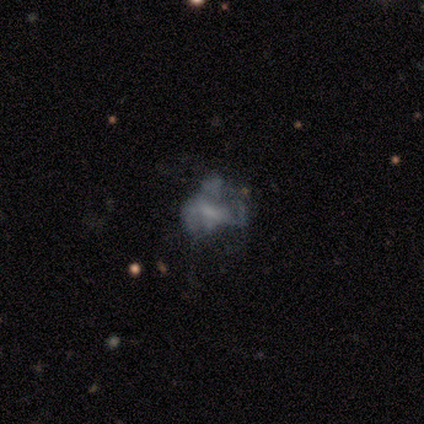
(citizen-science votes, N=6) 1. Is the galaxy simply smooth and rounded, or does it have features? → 50% featured or disk, 33% smooth, 17% star or artifact.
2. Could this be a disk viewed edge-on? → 100% no, 0% yes.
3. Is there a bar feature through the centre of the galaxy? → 100% no, 0% strong, 0% weak.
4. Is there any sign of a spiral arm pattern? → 100% no, 0% yes.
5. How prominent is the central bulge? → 67% none, 33% moderate, 0% dominant, 0% large, 0% small.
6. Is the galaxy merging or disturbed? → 40% none (tied), 40% major disturbance (tied), 20% merger, 0% minor disturbance.